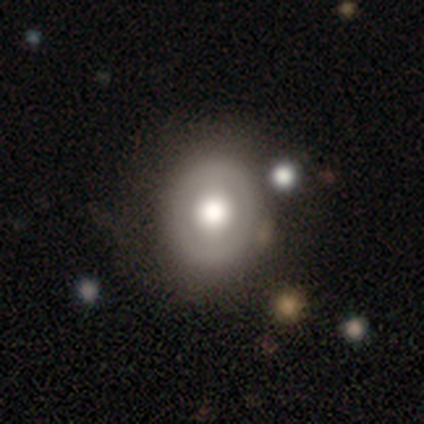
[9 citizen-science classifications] Smooth or featured: featured or disk — 67% (smooth — 33%)
Edge-on disk: no — 83% (yes — 17%)
Bar: no — 80% (weak — 20%)
Spiral arms: no — 100%
Bulge size: moderate — 60% (dominant — 20%)
Merging: none — 67% (minor disturbance — 33%)